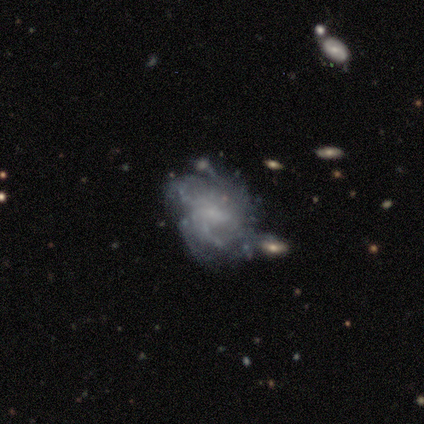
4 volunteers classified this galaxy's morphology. Overall: featured or disk (50%; smooth 25%). Edge-on disk: no (100%). Bar: weak (100%). Spiral arms: yes (100%). Spiral arm count: can't tell (100%). Spiral winding: medium (50%, tied with loose). Bulge size: moderate (50%, tied with small). Merging: none (67%; minor disturbance 33%).